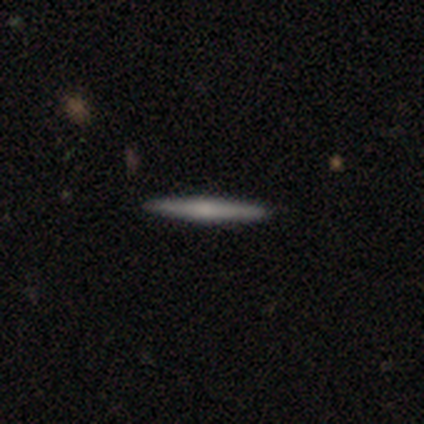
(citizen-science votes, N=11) Overall: featured or disk (73%). Edge-on disk: yes (100%). Edge-on bulge: rounded (88%). Merging: none (100%).